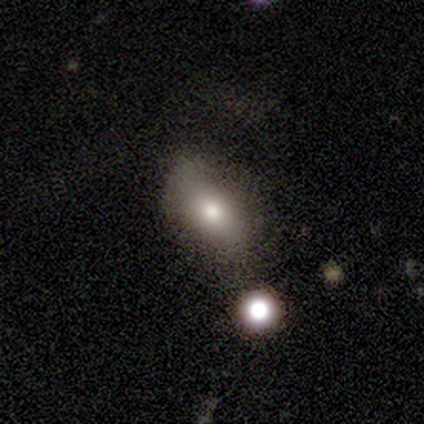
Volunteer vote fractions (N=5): Smooth or featured: smooth — 80% (star or artifact — 20%)
How rounded: in between — 75% (cigar-shaped — 25%)
Merging: none — 50% (tied with major disturbance — 50%)